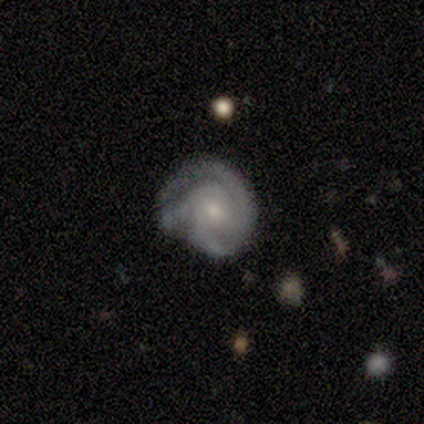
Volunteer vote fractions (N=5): Smooth or featured? featured or disk (100%)
Edge-on disk? no (80%)
Bar? no (75%)
Spiral arms? yes (100%)
Spiral winding? medium (75%)
Spiral arm count? 3 (100%)
Bulge size? moderate (50%, tied with small)
Merging? none (60%)